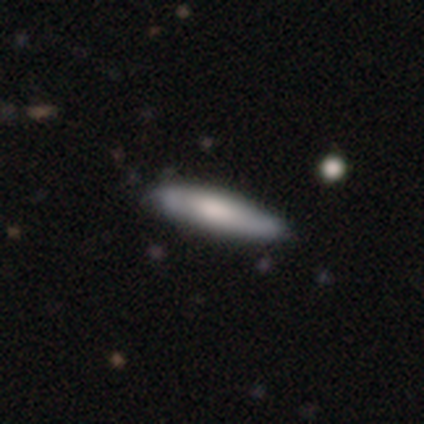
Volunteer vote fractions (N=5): Smooth or featured?
  - featured or disk: 80% *
  - smooth: 20%
  - star or artifact: 0%
Edge-on disk?
  - yes: 50% * (tied)
  - no: 50% * (tied)
Edge-on bulge?
  - rounded: 100% *
  - boxy: 0%
  - none: 0%
Merging?
  - none: 60% *
  - minor disturbance: 20%
  - major disturbance: 20%
  - merger: 0%